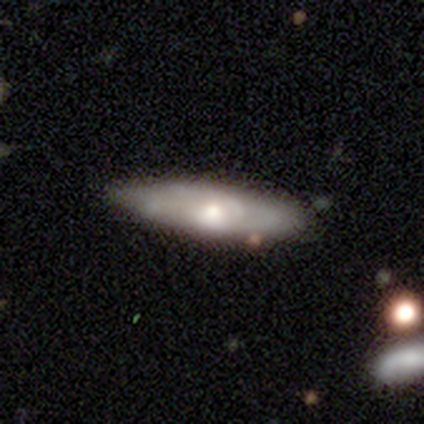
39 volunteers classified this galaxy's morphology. This is possibly a featured or disk galaxy (54%). It is possibly not viewed edge-on (57%). Bar: clearly no (83%). Spiral arm pattern: clearly yes (83%). Spiral arm count: likely can't tell (60%). Spiral winding: marginally loose (40%). Central bulge: possibly moderate (58%). Merging: likely none (71%).